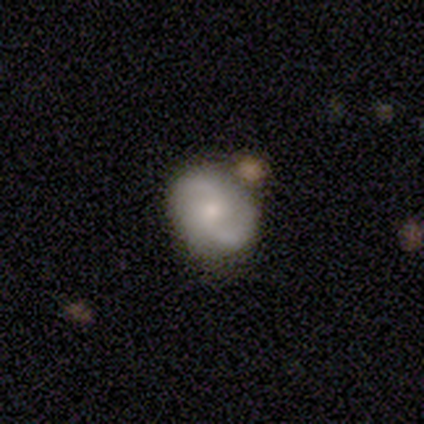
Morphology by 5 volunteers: Smooth or featured?
  - featured or disk: 100% *
  - smooth: 0%
  - star or artifact: 0%
Edge-on disk?
  - no: 100% *
  - yes: 0%
Bar?
  - no: 80% *
  - weak: 20%
  - strong: 0%
Spiral arms?
  - yes: 100% *
  - no: 0%
Spiral winding?
  - tight: 40% * (tied)
  - loose: 40% * (tied)
  - medium: 20%
Spiral arm count?
  - 2: 100% *
  - 1: 0%
  - 3: 0%
  - 4: 0%
  - more than 4: 0%
  - can't tell: 0%
Bulge size?
  - moderate: 80% *
  - small: 20%
  - dominant: 0%
  - large: 0%
  - none: 0%
Merging?
  - none: 80% *
  - merger: 20%
  - minor disturbance: 0%
  - major disturbance: 0%